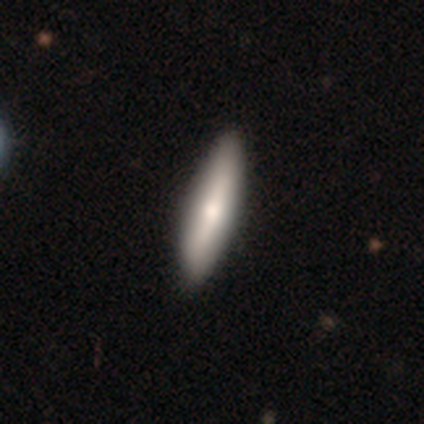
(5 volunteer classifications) Smooth or featured? smooth (100%)
How rounded? cigar-shaped (60%)
Merging? none (100%)